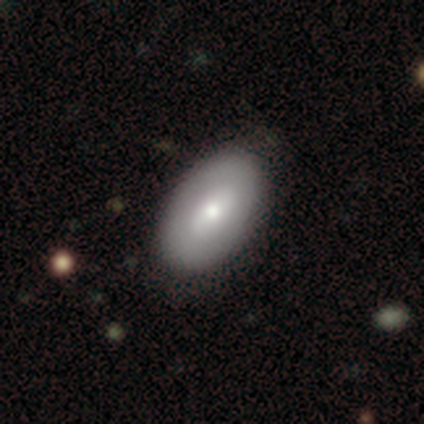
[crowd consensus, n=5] smooth_or_featured: featured or disk (p=0.60) [alt: smooth p=0.20]
disk_edge_on: no (p=1.00)
bar: no (p=1.00)
has_spiral_arms: no (p=1.00)
bulge_size: moderate (p=0.67) [alt: none p=0.33]
merging: none (p=0.75) [alt: major disturbance p=0.25]